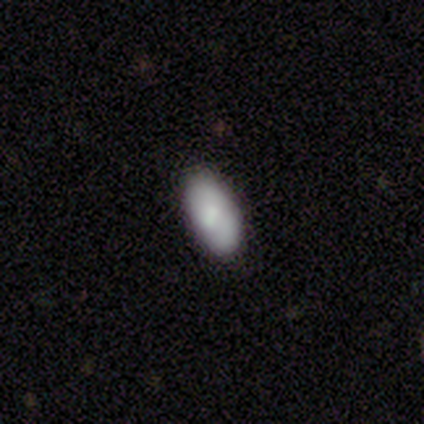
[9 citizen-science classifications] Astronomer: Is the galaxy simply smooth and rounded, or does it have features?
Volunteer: smooth — 89%.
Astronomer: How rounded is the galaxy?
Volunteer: in between — 100%.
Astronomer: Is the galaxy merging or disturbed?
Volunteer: none — 78%.